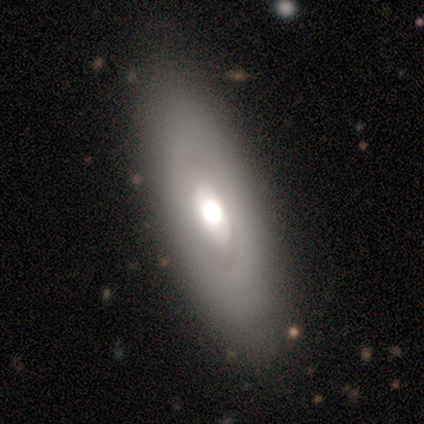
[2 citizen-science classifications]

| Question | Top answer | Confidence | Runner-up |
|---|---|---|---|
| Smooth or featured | featured or disk | 100% | — |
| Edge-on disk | no | 100% | — |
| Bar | no | 100% | — |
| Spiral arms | no | 100% | — |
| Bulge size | large | 50% | tied: moderate (50%) |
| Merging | none | 100% | — |